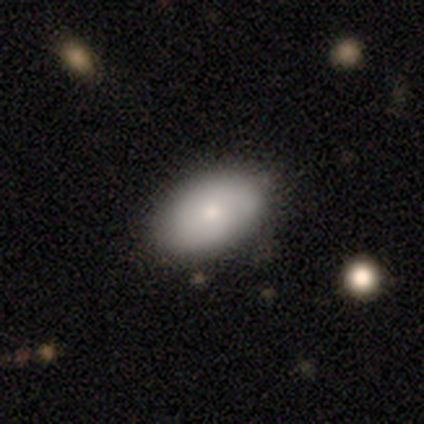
smooth 50% (tied), featured or disk 50% (tied), star or artifact 0%. Down the decision tree: how rounded — in between (100%); merging — none (75%).